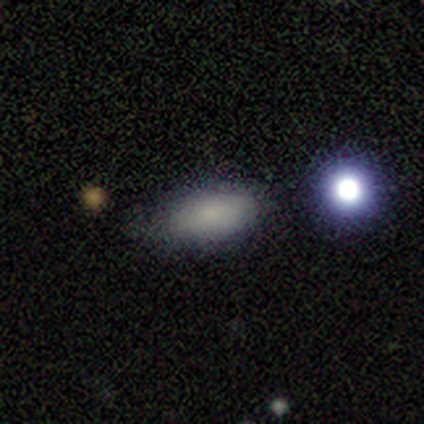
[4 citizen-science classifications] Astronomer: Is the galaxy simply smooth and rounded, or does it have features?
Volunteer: smooth — 50%, tied with star or artifact at 50%.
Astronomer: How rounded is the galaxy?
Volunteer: in between — 100%.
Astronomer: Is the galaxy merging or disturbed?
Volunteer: minor disturbance — 100%.